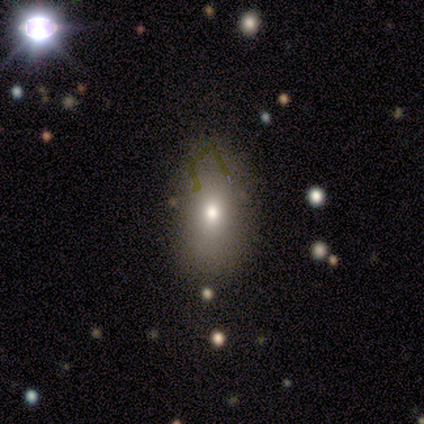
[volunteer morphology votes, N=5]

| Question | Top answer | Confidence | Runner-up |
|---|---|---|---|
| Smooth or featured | smooth | 100% | — |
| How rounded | in between | 100% | — |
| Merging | none | 100% | — |